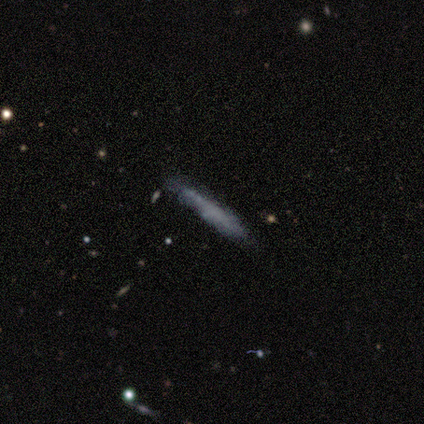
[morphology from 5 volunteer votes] This appears to be a smooth galaxy with no disk features (60%) that is cigar-shaped (100%). Merging: none (100%).